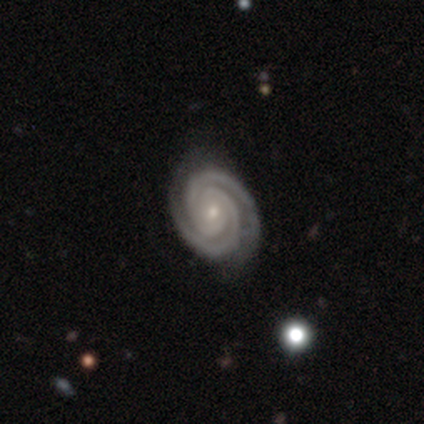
featured or disk 98%, star or artifact 2%, smooth 0%. Down the decision tree: edge-on disk — no (99%); bar — no (77%); spiral arms — yes (100%); spiral arm count — 2 (86%); spiral winding — tight (93%); bulge size — small (83%); merging — none (85%).